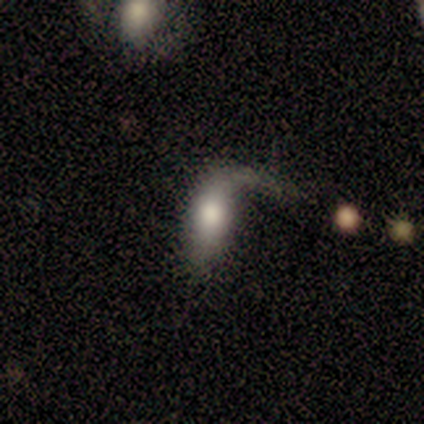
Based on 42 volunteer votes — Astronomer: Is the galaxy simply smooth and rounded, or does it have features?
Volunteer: featured or disk — 48% (runner-up: smooth, 43%).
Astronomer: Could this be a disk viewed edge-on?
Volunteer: no — 75%.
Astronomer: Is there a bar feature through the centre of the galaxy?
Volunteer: no — 80%.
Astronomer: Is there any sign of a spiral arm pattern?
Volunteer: yes — 53% (runner-up: no, 47%).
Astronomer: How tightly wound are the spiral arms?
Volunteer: loose — 100%.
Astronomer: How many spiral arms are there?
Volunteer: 1 — 100%.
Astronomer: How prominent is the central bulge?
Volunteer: large — 67%.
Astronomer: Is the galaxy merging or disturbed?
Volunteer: major disturbance — 42% (runner-up: none, 32%).